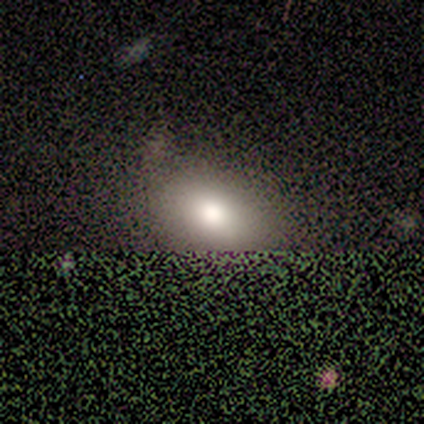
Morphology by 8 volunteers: Q: Smooth or featured?
A: smooth (88%); runner-up: star or artifact (12%)
Q: How rounded?
A: in between (100%)
Q: Merging?
A: none (71%); runner-up: minor disturbance (14%)